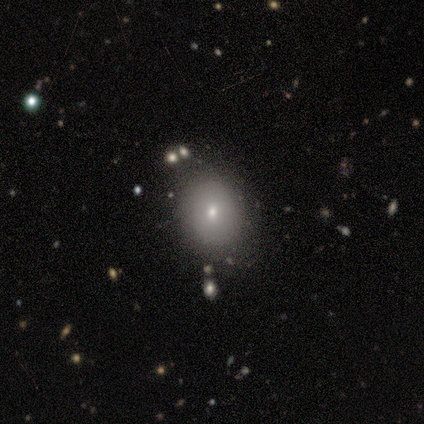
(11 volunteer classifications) Smooth or featured? smooth (82%)
How rounded? in between (56%)
Merging? none (64%)